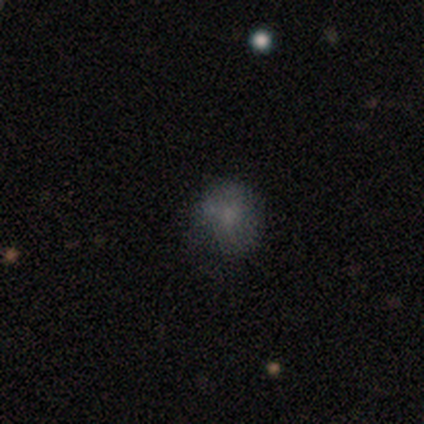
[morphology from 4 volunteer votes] smooth_or_featured: smooth (p=0.75) [alt: star or artifact p=0.25]
how_rounded: round (p=1.00)
merging: minor disturbance (p=0.67) [alt: major disturbance p=0.33]